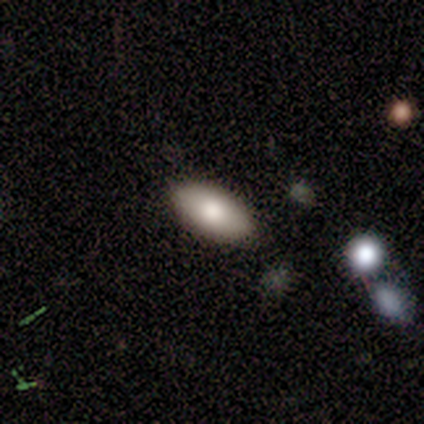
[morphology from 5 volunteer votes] smooth-or-featured: smooth: 80% | featured or disk: 20% | star or artifact: 0%
  how-rounded: in between: 75% | round: 25% | cigar-shaped: 0%
  merging: none: 100% | minor disturbance: 0% | major disturbance: 0% | merger: 0%